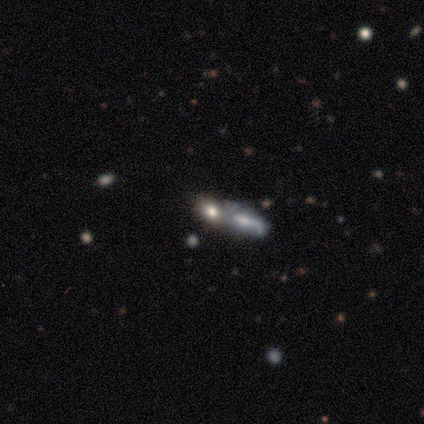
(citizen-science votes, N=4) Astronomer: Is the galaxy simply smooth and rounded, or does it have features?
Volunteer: smooth — 100%.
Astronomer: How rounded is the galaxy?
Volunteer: in between — 50%, tied with cigar-shaped at 50%.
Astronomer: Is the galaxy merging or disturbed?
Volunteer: merger — 75%.